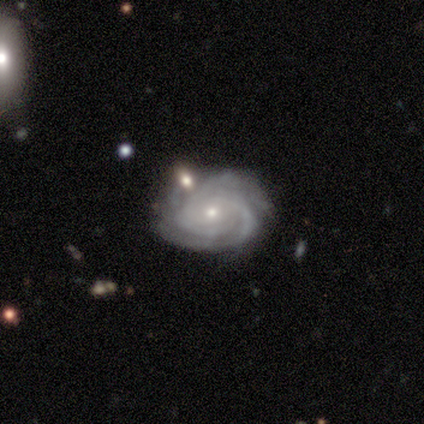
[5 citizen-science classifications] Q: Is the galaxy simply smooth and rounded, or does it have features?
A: featured or disk — 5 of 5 (100%).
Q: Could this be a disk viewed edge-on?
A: no — 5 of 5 (100%).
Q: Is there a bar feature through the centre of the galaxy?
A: no — 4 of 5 (80%).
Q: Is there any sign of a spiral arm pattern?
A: yes — 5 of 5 (100%).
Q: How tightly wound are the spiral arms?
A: tight — 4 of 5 (80%).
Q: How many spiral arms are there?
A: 2 — 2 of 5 (40%).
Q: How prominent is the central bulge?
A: small — 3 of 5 (60%).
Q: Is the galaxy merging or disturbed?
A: none — 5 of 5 (100%).